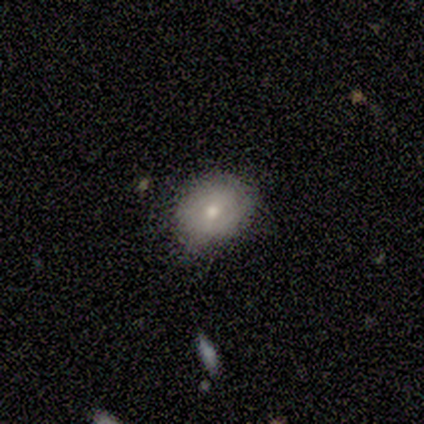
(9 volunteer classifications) Overall: smooth (78%). How rounded: round (71%). Merging: none (78%).